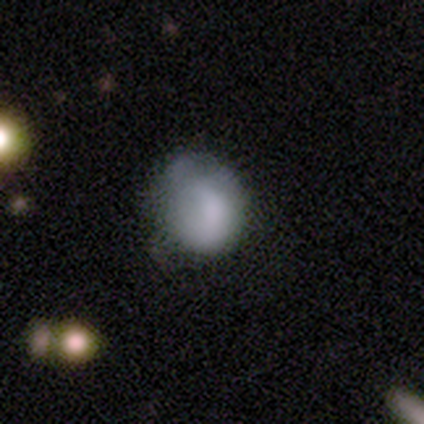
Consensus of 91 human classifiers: This is likely a smooth galaxy (73%). How rounded: likely round (74%). Merging: marginally none (42%).